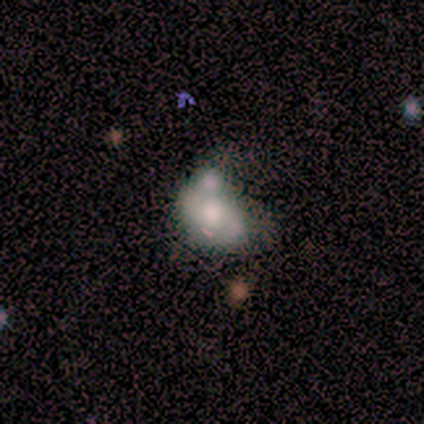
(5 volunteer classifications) This is likely a featured or disk galaxy (60%). It is clearly not viewed edge-on (100%). Bar: clearly no (100%). Spiral arm pattern: clearly no (100%). Central bulge: clearly moderate (100%). Merging: clearly merger (80%).